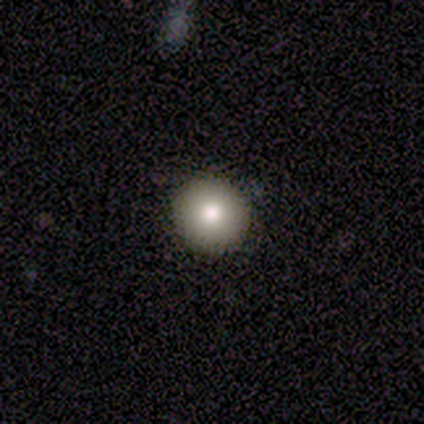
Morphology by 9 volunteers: smooth-or-featured: smooth: 89% | star or artifact: 11% | featured or disk: 0%
  how-rounded: round: 88% | in between: 12% | cigar-shaped: 0%
  merging: none: 88% | minor disturbance: 12% | major disturbance: 0% | merger: 0%